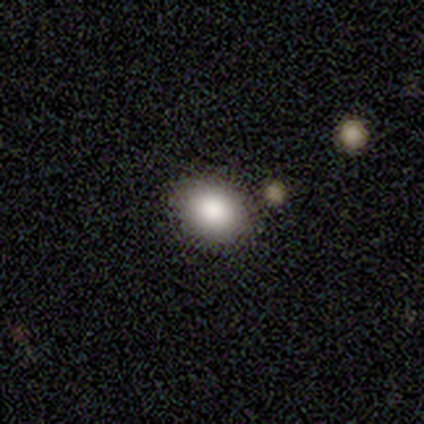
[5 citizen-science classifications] A smooth galaxy with no disk features (100%) that is in between round and cigar-shaped (60%).

Vote fractions:
- Smooth or featured? smooth: 100% / featured or disk: 0% / star or artifact: 0%
- How rounded? in between: 60% / round: 40% / cigar-shaped: 0%
- Merging? none: 100% / minor disturbance: 0% / major disturbance: 0% / merger: 0%